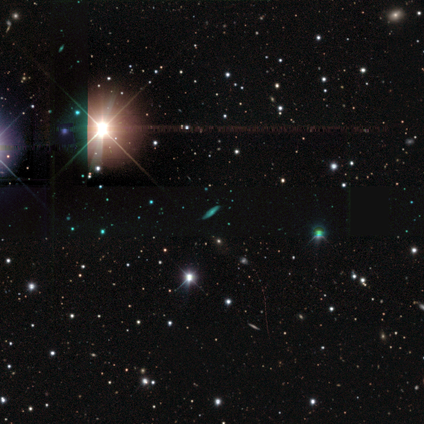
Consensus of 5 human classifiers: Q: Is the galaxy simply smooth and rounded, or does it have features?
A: star or artifact — 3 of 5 (60%).